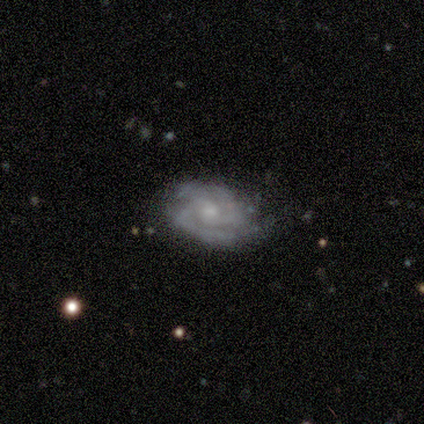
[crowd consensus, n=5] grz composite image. It shows a featured or disk galaxy (60%) with a strong bar (33%, tied with weak and no), 2 (33%, tied with 3 and 4) medium (67%) spiral arms (100%) and a moderate central bulge (67%). Merging: none (75%).